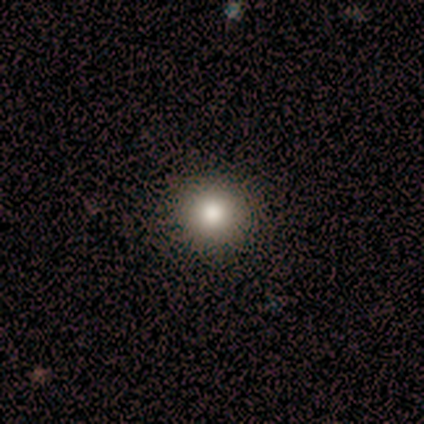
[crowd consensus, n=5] Morphology: type=smooth (80%); roundness=round (100%); merging=none (75%).